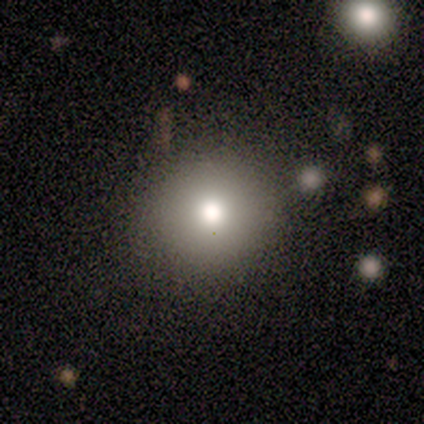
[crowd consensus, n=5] Smooth or featured? smooth (60%)
How rounded? round (100%)
Merging? none (80%)